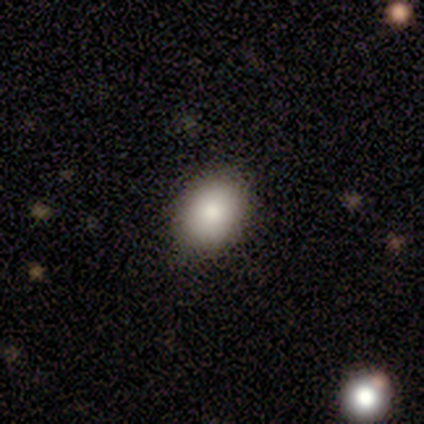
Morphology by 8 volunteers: smooth_or_featured: smooth (p=0.62) [alt: star or artifact p=0.25]
how_rounded: round (p=0.60) [alt: in between p=0.40]
merging: none (p=1.00)